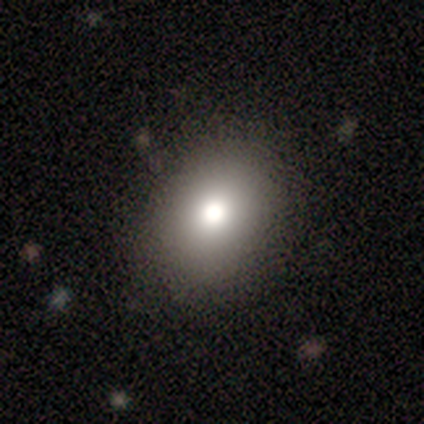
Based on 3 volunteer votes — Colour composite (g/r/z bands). It shows a smooth galaxy with no disk features (67%) that is in between round and cigar-shaped (100%). Merging: none (50%, tied with major disturbance).